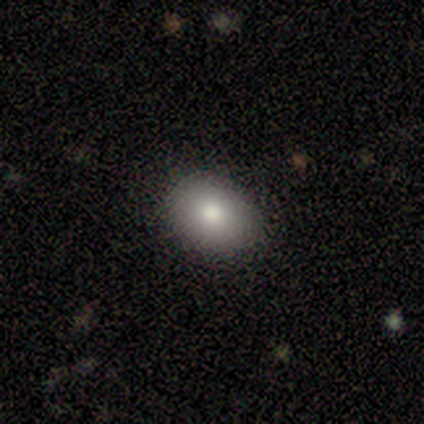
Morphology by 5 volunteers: Smooth or featured? smooth (80%)
How rounded? in between (75%)
Merging? none (80%)